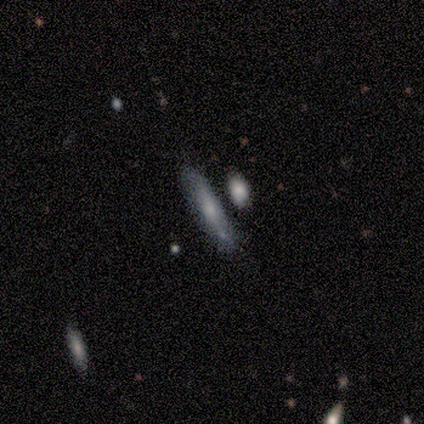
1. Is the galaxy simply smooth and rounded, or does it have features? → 60% smooth, 40% featured or disk, 0% star or artifact.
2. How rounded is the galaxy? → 67% cigar-shaped, 33% round, 0% in between.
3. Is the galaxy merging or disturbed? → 80% none, 20% merger, 0% minor disturbance, 0% major disturbance.